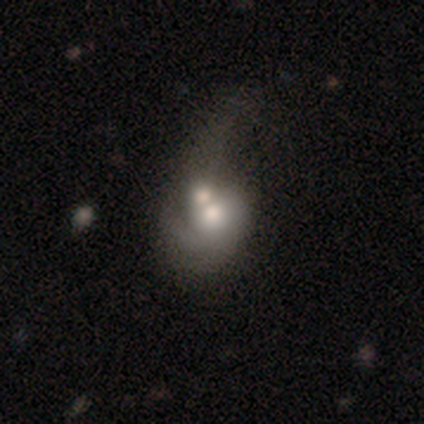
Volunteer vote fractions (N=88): Q: Smooth or featured?
A: smooth (47%); runner-up: featured or disk (44%)
Q: How rounded?
A: in between (54%); runner-up: round (46%)
Q: Merging?
A: merger (64%); runner-up: minor disturbance (14%)